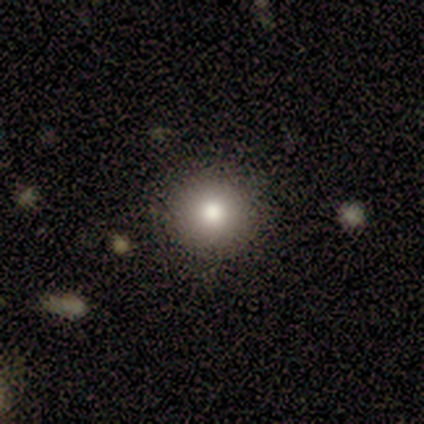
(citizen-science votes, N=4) smooth_or_featured: smooth (p=1.00)
how_rounded: round (p=1.00)
merging: none (p=1.00)